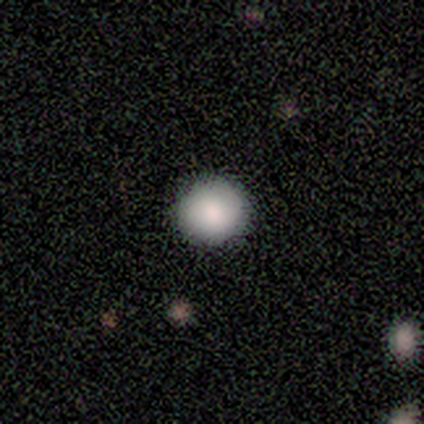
Smooth or featured: smooth — 100%
How rounded: round — 100%
Merging: none — 100%